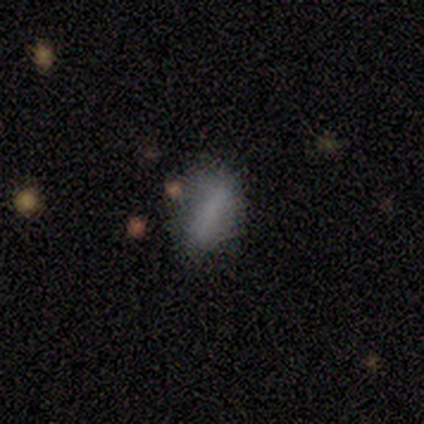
Smooth or featured? 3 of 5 (60%) said smooth. How rounded? 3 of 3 (100%) said cigar-shaped. Merging? 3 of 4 (75%) said none.